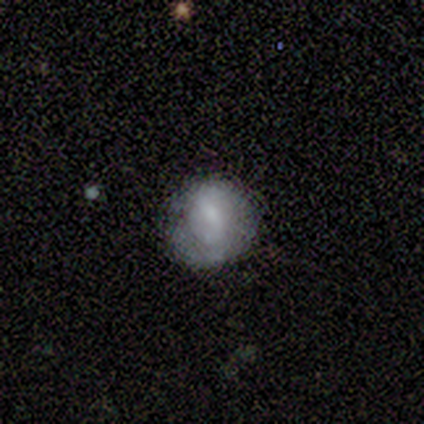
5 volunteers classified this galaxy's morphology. Volunteers were most divided on "bar": weak: 67%, strong: 33%, no: 0%. More confident: edge-on disk — no (100%); spiral arms — no (100%); bulge size — small (100%); merging — none (100%); smooth or featured — featured or disk (60%).